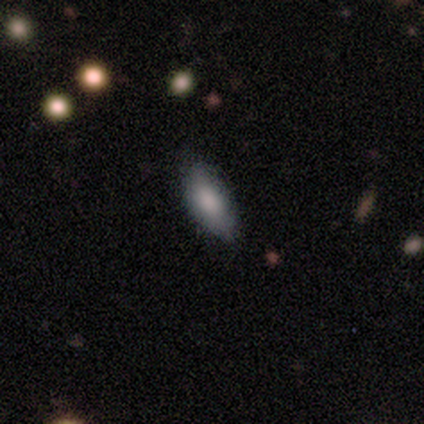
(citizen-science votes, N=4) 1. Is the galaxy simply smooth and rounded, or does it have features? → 75% smooth, 25% star or artifact, 0% featured or disk.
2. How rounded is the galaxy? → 67% in between, 33% cigar-shaped, 0% round.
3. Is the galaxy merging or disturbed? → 100% none, 0% minor disturbance, 0% major disturbance, 0% merger.